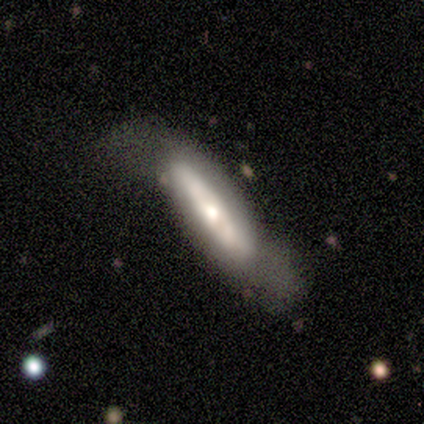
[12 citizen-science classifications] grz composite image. It shows a smooth galaxy with no disk features (58%) that is cigar-shaped (57%). Merging: none (50%).